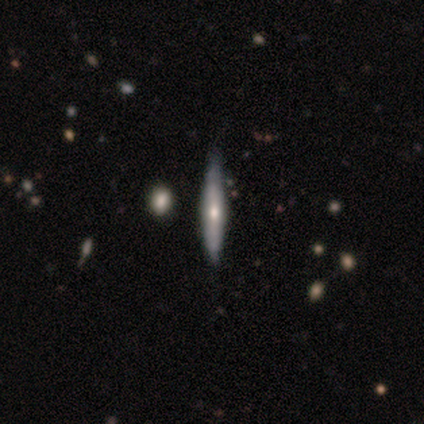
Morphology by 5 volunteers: Smooth or featured?
  - featured or disk: 60% *
  - smooth: 40%
  - star or artifact: 0%
Edge-on disk?
  - yes: 100% *
  - no: 0%
Edge-on bulge?
  - rounded: 100% *
  - boxy: 0%
  - none: 0%
Merging?
  - none: 60% *
  - minor disturbance: 40%
  - major disturbance: 0%
  - merger: 0%